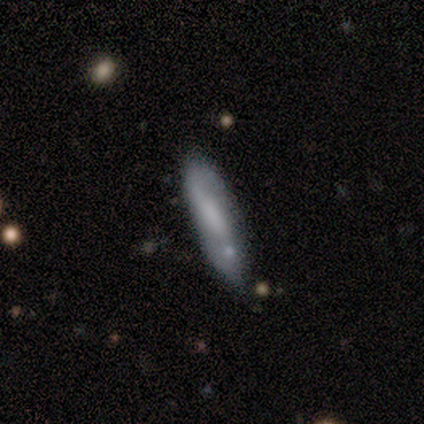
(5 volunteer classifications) This is likely a smooth galaxy (60%). How rounded: likely cigar-shaped (67%). Merging: clearly none (100%).